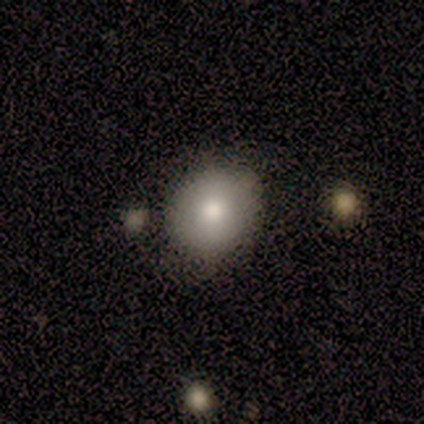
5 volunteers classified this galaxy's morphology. Smooth or featured? 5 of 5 (100%) said smooth. How rounded? 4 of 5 (80%) said round. Merging? 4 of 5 (80%) said none.